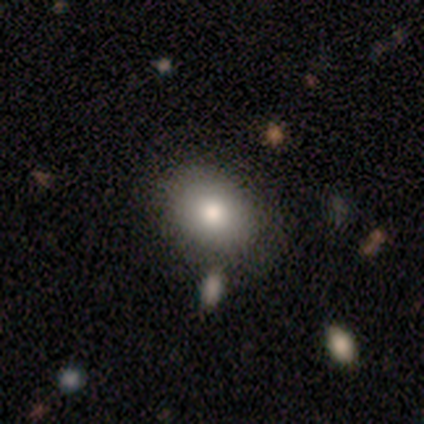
A star or artifact, not a galaxy (60%).